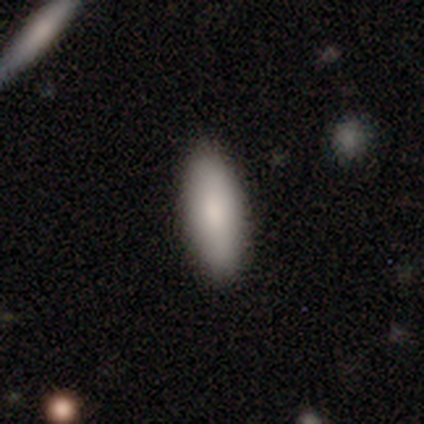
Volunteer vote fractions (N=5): This appears to be a smooth galaxy with no disk features (100%) that is in between round and cigar-shaped (80%). Merging: none (100%).